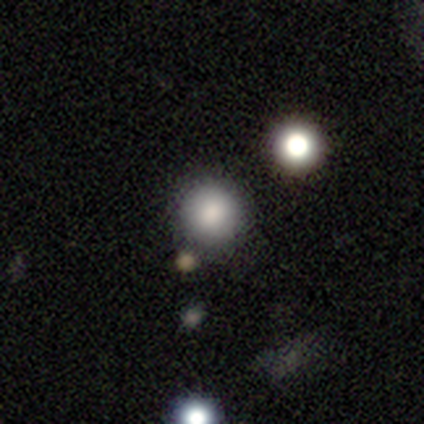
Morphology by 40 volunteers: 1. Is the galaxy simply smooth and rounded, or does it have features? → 85% smooth, 15% star or artifact, 0% featured or disk.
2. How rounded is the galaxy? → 94% round, 6% in between, 0% cigar-shaped.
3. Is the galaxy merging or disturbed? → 91% none, 6% minor disturbance, 3% merger, 0% major disturbance.